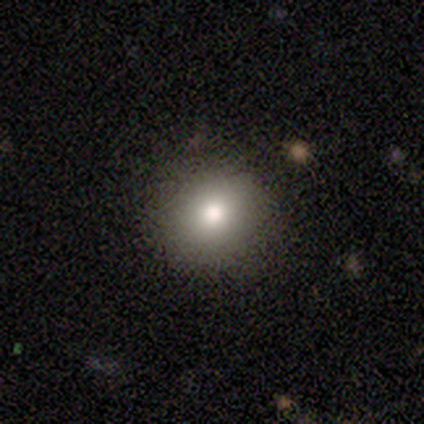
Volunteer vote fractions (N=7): A smooth galaxy with no disk features (86%) that is round (83%). Merging: none (100%).